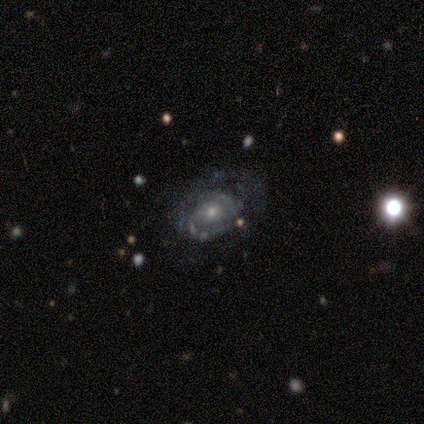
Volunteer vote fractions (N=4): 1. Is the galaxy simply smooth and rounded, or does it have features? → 75% featured or disk, 25% star or artifact, 0% smooth.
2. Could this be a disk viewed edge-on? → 100% no, 0% yes.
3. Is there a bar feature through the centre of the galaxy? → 67% no, 33% weak, 0% strong.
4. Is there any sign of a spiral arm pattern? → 67% yes, 33% no.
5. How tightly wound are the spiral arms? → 100% tight, 0% medium, 0% loose.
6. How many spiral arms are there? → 50% 2 (tied), 50% can't tell (tied), 0% 1, 0% 3, 0% 4, 0% more than 4.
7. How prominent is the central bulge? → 67% small, 33% moderate, 0% dominant, 0% large, 0% none.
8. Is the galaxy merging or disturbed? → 67% none, 33% minor disturbance, 0% major disturbance, 0% merger.